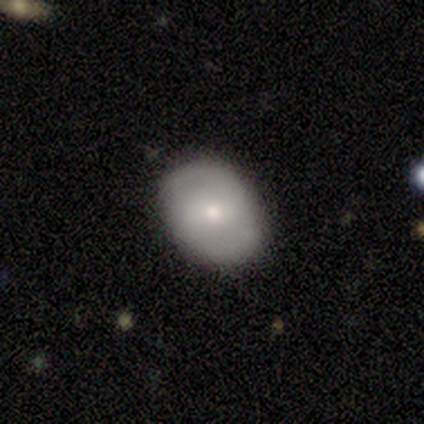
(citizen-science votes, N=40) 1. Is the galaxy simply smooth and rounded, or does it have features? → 60% featured or disk, 40% smooth, 0% star or artifact.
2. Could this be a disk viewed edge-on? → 100% no, 0% yes.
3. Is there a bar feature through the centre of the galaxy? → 46% no, 33% weak, 21% strong.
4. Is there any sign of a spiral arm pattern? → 67% yes, 33% no.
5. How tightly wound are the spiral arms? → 44% loose, 31% medium, 25% tight.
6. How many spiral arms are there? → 94% 2, 6% can't tell, 0% 1, 0% 3, 0% 4, 0% more than 4.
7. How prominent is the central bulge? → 54% small, 29% moderate, 8% large, 4% dominant, 4% none.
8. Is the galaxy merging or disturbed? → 82% none, 2% minor disturbance, 0% major disturbance, 0% merger.